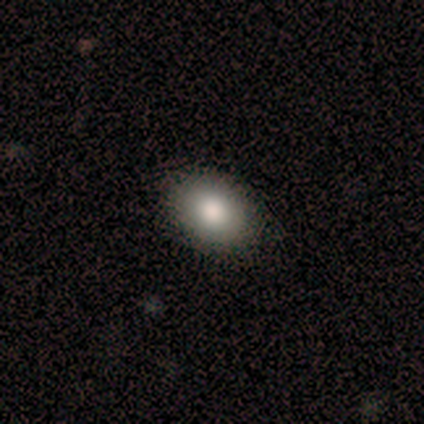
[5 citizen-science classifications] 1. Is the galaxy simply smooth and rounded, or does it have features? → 100% smooth, 0% featured or disk, 0% star or artifact.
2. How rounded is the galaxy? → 100% in between, 0% round, 0% cigar-shaped.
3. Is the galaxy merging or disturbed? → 80% none, 20% major disturbance, 0% minor disturbance, 0% merger.